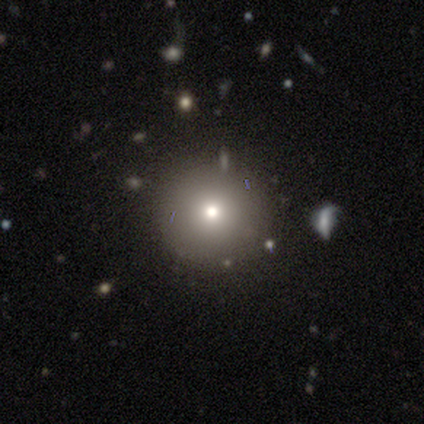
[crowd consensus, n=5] smooth 80%, featured or disk 20%, star or artifact 0%. Down the decision tree: how rounded — round (100%); merging — none (100%).